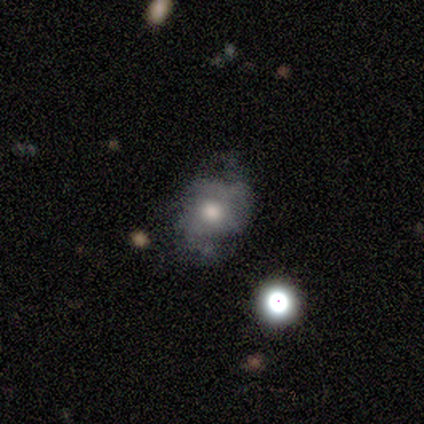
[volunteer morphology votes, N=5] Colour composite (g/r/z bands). It shows a smooth galaxy with no disk features (60%) that is in between round and cigar-shaped (67%). Merging: major disturbance (50%).